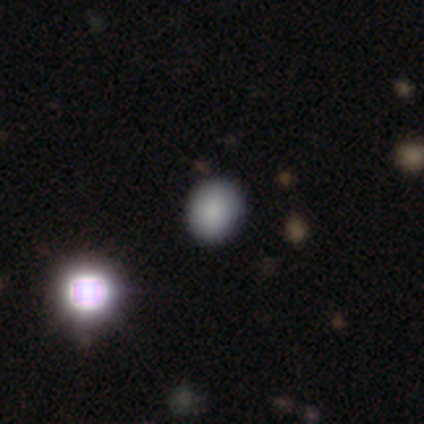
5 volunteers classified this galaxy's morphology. smooth 80%, star or artifact 20%, featured or disk 0%. Down the decision tree: how rounded — round (50%, tied with in between); merging — none (75%).